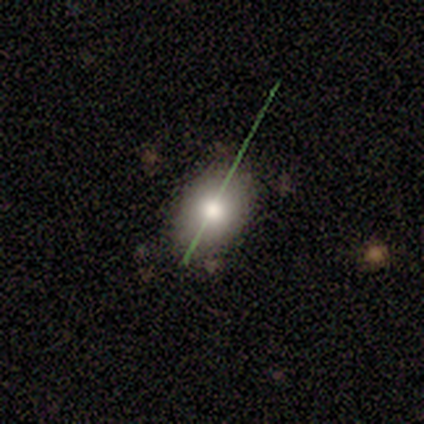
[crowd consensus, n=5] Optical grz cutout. It shows a smooth galaxy with no disk features (60%) that is round (67%). Merging: none (100%).